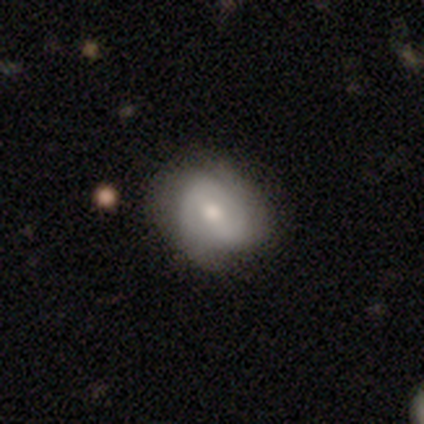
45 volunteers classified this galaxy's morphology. This appears to be a smooth galaxy with no disk features (58%) that is round (65%). Merging: none (69%).